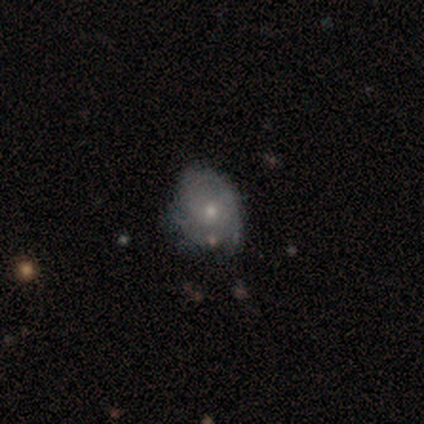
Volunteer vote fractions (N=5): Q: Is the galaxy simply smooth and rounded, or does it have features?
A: featured or disk — 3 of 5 (60%).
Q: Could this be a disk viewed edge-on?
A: no — 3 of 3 (100%).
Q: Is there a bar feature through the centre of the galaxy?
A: no — 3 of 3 (100%).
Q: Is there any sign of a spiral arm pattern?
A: yes — 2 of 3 (67%).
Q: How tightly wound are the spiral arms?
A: tight — 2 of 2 (100%).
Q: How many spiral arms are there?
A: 2 — 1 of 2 (50%, tied with can't tell).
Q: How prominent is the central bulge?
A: small — 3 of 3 (100%).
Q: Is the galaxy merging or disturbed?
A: none — 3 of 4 (75%).